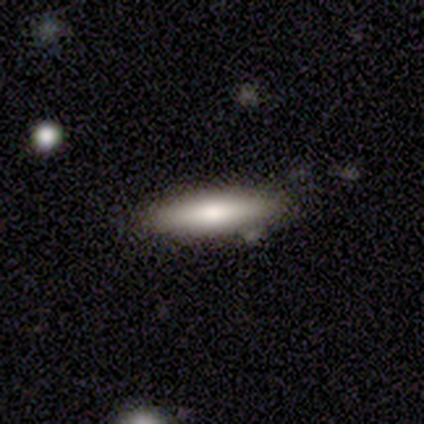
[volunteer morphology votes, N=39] Volunteers were most divided on "smooth or featured": smooth: 74%, featured or disk: 18%, star or artifact: 8%. More confident: merging — none (86%); how rounded — cigar-shaped (83%).